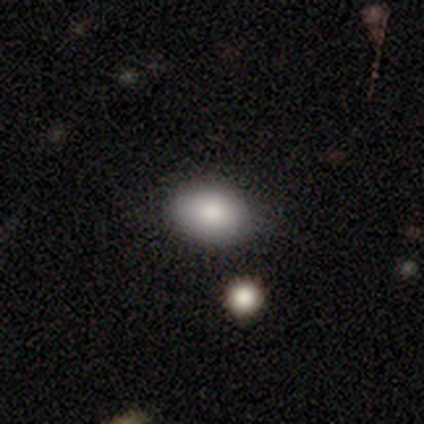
smooth_or_featured: smooth (p=0.79) [alt: featured or disk p=0.16]
how_rounded: in between (p=0.77) [alt: round p=0.23]
merging: none (p=0.86) [alt: minor disturbance p=0.14]